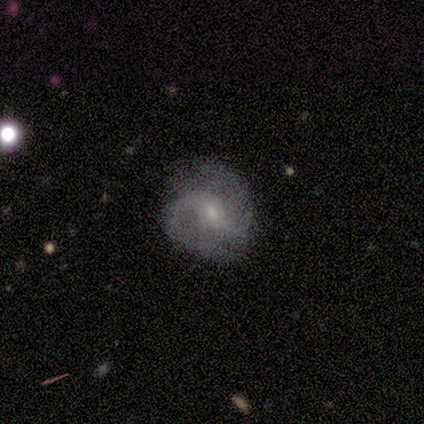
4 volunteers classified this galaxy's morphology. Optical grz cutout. It shows a featured or disk galaxy (100%) with a weak bar (50%, tied with no), 2 (100%) loose (67%) spiral arms (75%) and a small central bulge (75%). Merging: none (75%).